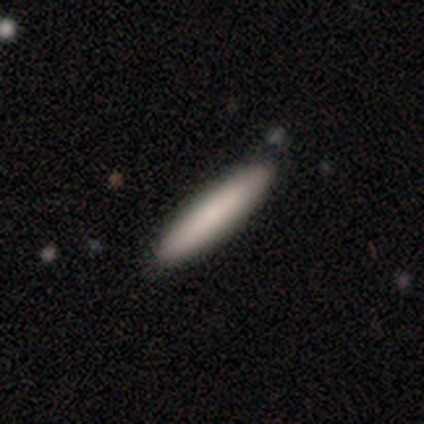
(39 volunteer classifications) This is likely a smooth galaxy (74%). How rounded: clearly cigar-shaped (83%). Merging: clearly none (82%).